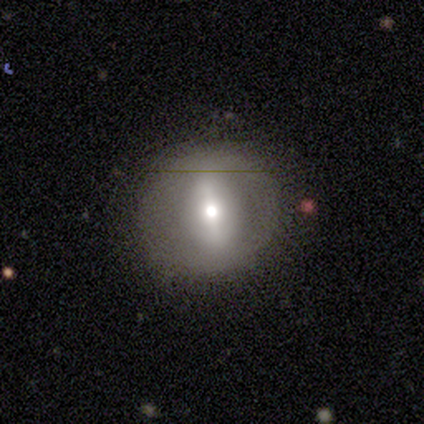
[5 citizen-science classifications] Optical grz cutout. It shows a smooth galaxy with no disk features (40%, tied with featured or disk) that is round (50%, tied with in between). Merging: none (50%, tied with minor disturbance).